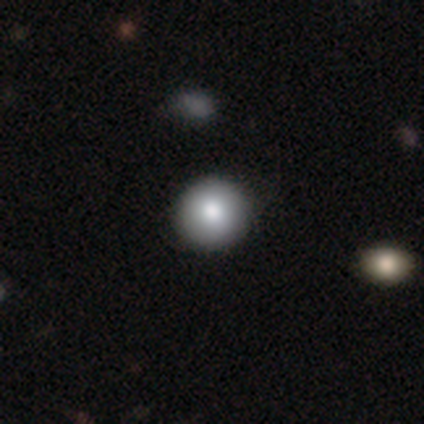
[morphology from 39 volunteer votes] Smooth or featured?
  - smooth: 82% *
  - star or artifact: 10%
  - featured or disk: 8%
How rounded?
  - round: 97% *
  - in between: 3%
  - cigar-shaped: 0%
Merging?
  - none: 46% *
  - minor disturbance: 6%
  - merger: 6%
  - major disturbance: 3%